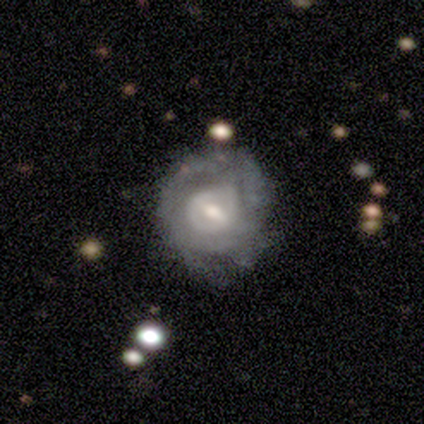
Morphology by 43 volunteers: A featured or disk galaxy (67%) with a weak bar (59%), no spiral arms (59%) and a moderate central bulge (55%).

Vote fractions:
- Smooth or featured? featured or disk: 67% / smooth: 23% / star or artifact: 9%
- Edge-on disk? no: 100% / yes: 0%
- Bar? weak: 59% / strong: 21% / no: 21%
- Spiral arms? no: 59% / yes: 41%
- Bulge size? moderate: 55% / small: 41% / large: 3% / dominant: 0% / none: 0%
- Merging? none: 64% / minor disturbance: 21% / major disturbance: 13% / merger: 3%